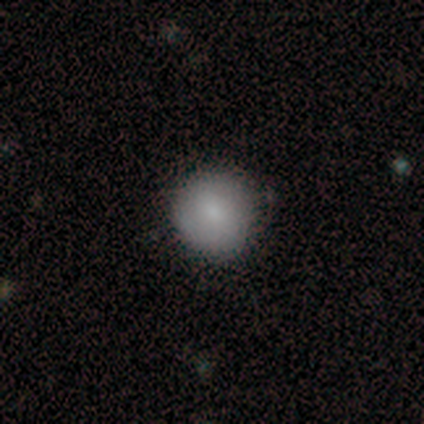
smooth-or-featured: smooth: 82% | star or artifact: 10% | featured or disk: 8%
  how-rounded: round: 91% | in between: 9% | cigar-shaped: 0%
  merging: none: 83% | minor disturbance: 11% | major disturbance: 3% | merger: 3%